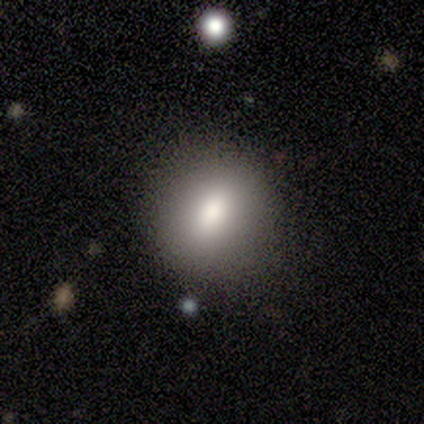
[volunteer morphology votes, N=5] Overall: smooth (100%). How rounded: round (80%). Merging: none (100%).